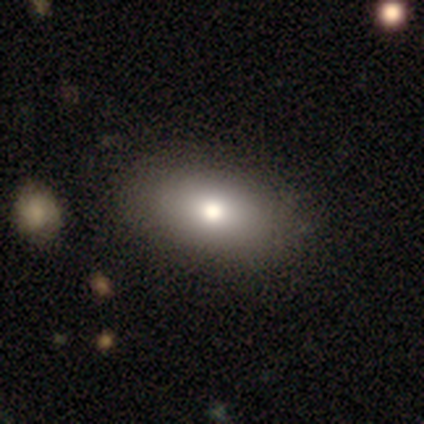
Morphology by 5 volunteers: A smooth galaxy with no disk features (80%) that is in between round and cigar-shaped (100%).

Vote fractions:
- Smooth or featured? smooth: 80% / star or artifact: 20% / featured or disk: 0%
- How rounded? in between: 100% / round: 0% / cigar-shaped: 0%
- Merging? none: 75% / minor disturbance: 25% / major disturbance: 0% / merger: 0%